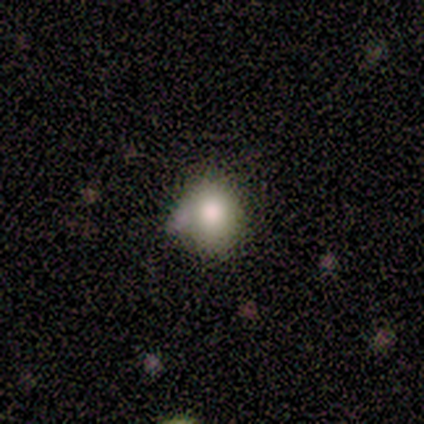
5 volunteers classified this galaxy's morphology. type=smooth (40%, tied with featured or disk); roundness=in between (100%); merging=none (100%).